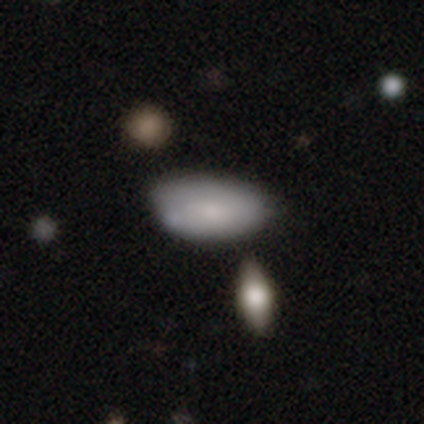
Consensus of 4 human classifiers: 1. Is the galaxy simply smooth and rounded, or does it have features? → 100% smooth, 0% featured or disk, 0% star or artifact.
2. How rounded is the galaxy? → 100% in between, 0% round, 0% cigar-shaped.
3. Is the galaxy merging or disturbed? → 50% minor disturbance, 25% none, 25% major disturbance, 0% merger.